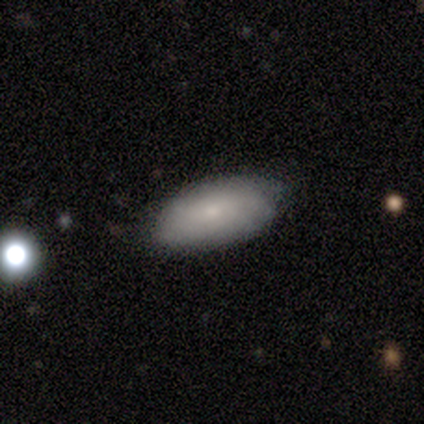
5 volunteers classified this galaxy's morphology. Smooth or featured: smooth — 60% (featured or disk — 40%)
How rounded: in between — 100%
Merging: none — 100%